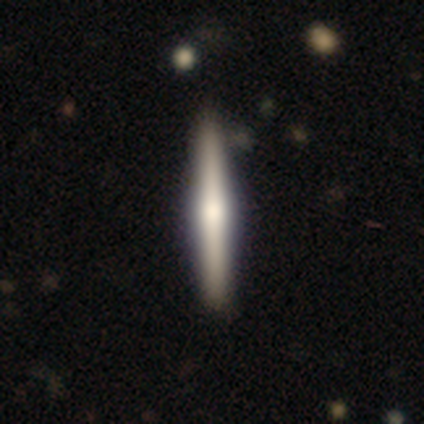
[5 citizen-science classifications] A featured or disk galaxy (80%) viewed edge-on (100%) with a rounded central bulge (75%).

Vote fractions:
- Smooth or featured? featured or disk: 80% / star or artifact: 20% / smooth: 0%
- Edge-on disk? yes: 100% / no: 0%
- Edge-on bulge? rounded: 75% / boxy: 25% / none: 0%
- Merging? none: 75% / minor disturbance: 25% / major disturbance: 0% / merger: 0%